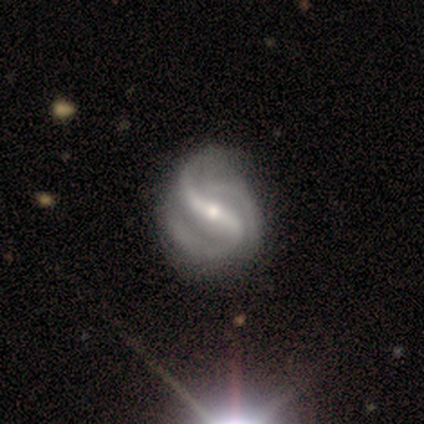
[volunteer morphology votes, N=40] Volunteers were most divided on "bulge size": moderate: 54%, small: 44%, large: 3%, dominant: 0%, none: 0%. Remaining: edge-on disk — no (100%); spiral arms — yes (100%); smooth or featured — featured or disk (98%); bar — strong (67%); spiral winding — medium (56%); spiral arm count — 2 (54%); merging — none (38%).